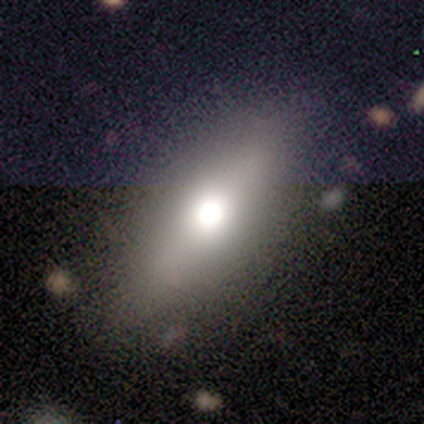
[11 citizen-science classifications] This appears to be a smooth galaxy with no disk features (64%) that is in between round and cigar-shaped (57%). Merging: none (78%).